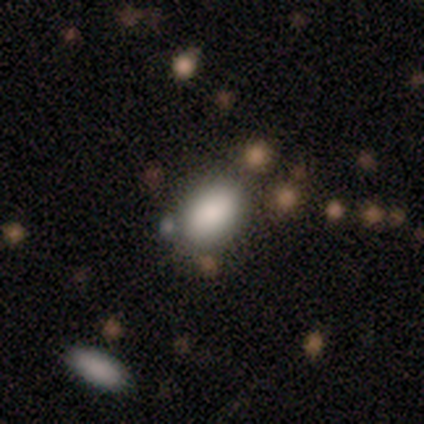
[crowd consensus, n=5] Overall: smooth (100%). How rounded: in between (100%). Merging: none (60%; minor disturbance 40%).